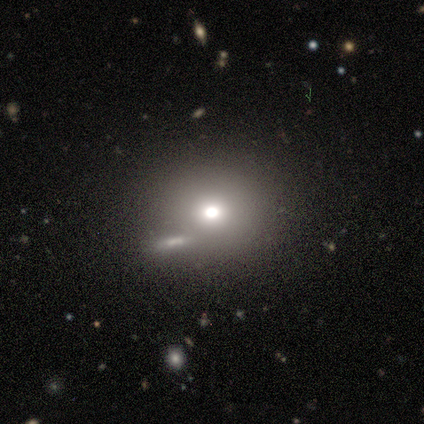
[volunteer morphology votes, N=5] Volunteers were most divided on "how rounded" (2-way tie): round: 50%, in between: 50%, cigar-shaped: 0%. More confident: smooth or featured — smooth (80%); merging — none (80%).